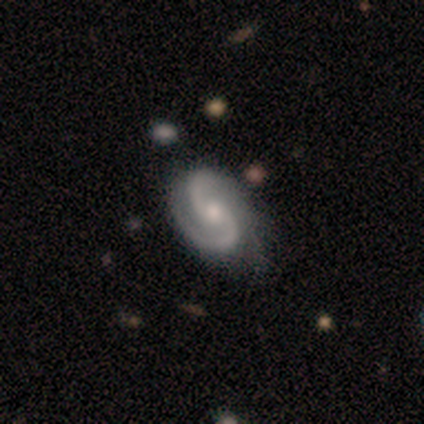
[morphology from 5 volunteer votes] Smooth or featured? featured or disk (100%)
Edge-on disk? no (100%)
Bar? no (60%)
Spiral arms? yes (100%)
Spiral winding? medium (40%, tied with loose)
Spiral arm count? 2 (80%)
Bulge size? moderate (60%)
Merging? none (80%)